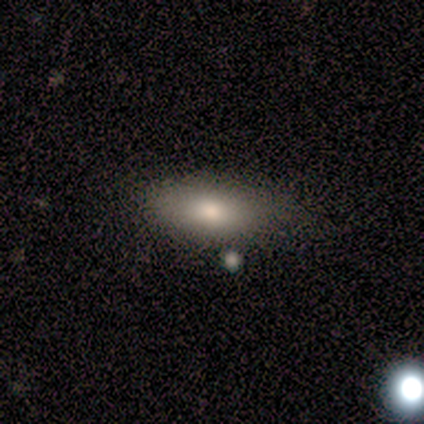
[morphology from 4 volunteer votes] This is likely a featured or disk galaxy (75%). It is likely not viewed edge-on (67%). Bar: clearly no (100%). Spiral arm pattern: clearly no (100%). Central bulge: possibly large (50%, tied with moderate). Merging: likely none (75%).